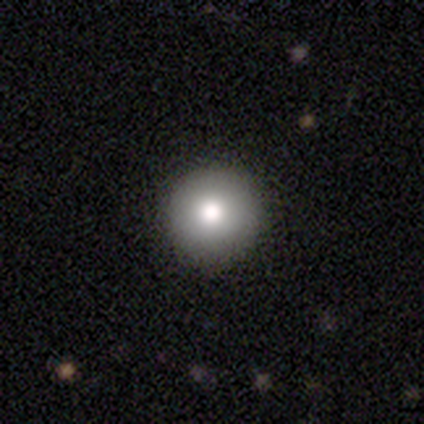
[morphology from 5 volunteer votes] Overall: smooth (80%). How rounded: round (100%). Merging: none (100%).